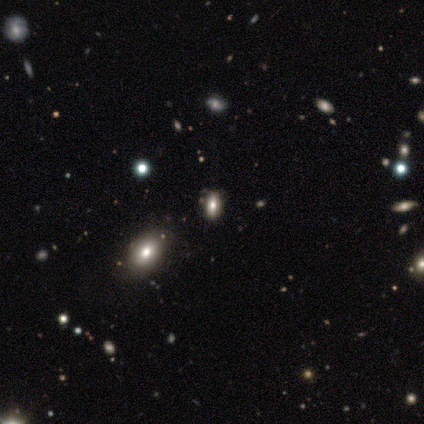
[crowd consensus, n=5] A smooth galaxy with no disk features (60%) that is in between round and cigar-shaped (67%).

Vote fractions:
- Smooth or featured? smooth: 60% / star or artifact: 40% / featured or disk: 0%
- How rounded? in between: 67% / round: 33% / cigar-shaped: 0%
- Merging? none: 67% / minor disturbance: 33% / major disturbance: 0% / merger: 0%